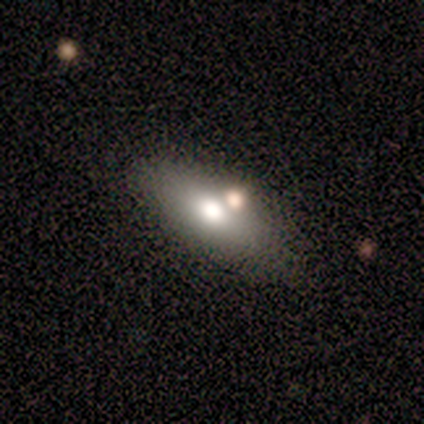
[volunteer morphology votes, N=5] Overall: smooth (100%). How rounded: in between (100%). Merging: none (80%).